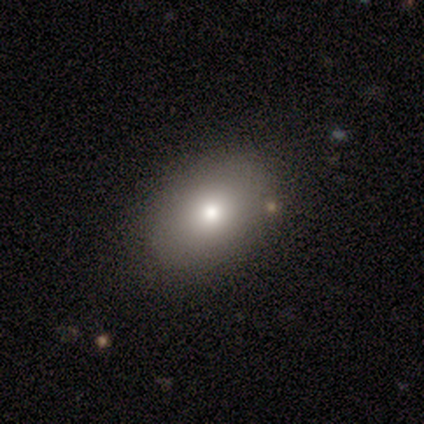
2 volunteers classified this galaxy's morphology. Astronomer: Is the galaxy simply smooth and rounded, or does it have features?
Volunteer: smooth — 50%, tied with featured or disk at 50%.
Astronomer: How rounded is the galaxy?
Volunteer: in between — 100%.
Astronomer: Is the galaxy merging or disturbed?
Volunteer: none — 50%, tied with minor disturbance at 50%.